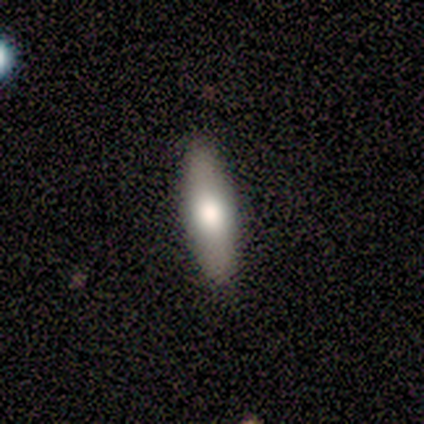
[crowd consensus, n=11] Overall: smooth (55%; featured or disk 36%). How rounded: cigar-shaped (67%; in between 33%). Merging: none (90%).